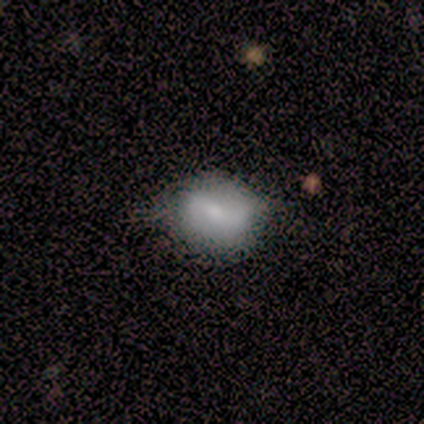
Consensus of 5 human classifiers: Q: Smooth or featured?
A: smooth (100%)
Q: How rounded?
A: in between (80%); runner-up: round (20%)
Q: Merging?
A: minor disturbance (60%); runner-up: none (20%)